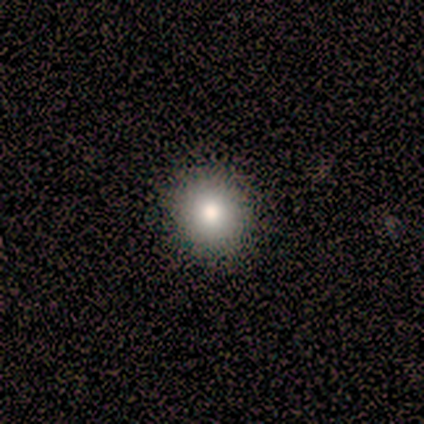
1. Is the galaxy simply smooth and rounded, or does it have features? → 100% smooth, 0% featured or disk, 0% star or artifact.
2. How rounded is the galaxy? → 100% round, 0% in between, 0% cigar-shaped.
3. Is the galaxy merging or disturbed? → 100% none, 0% minor disturbance, 0% major disturbance, 0% merger.